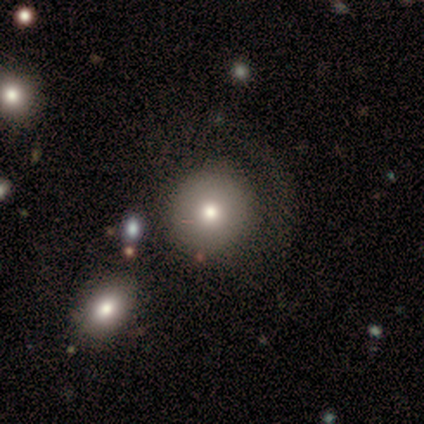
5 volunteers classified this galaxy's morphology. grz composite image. It shows a smooth galaxy with no disk features (100%) that is round (100%). Merging: none (100%).